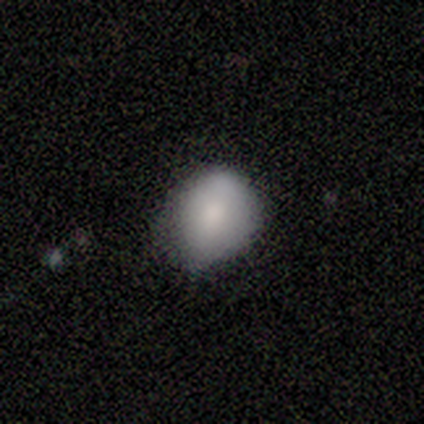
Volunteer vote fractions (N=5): smooth_or_featured: smooth (p=0.80) [alt: star or artifact p=0.20]
how_rounded: round (p=0.50) [tied with: in between p=0.50]
merging: none (p=0.75) [alt: minor disturbance p=0.25]